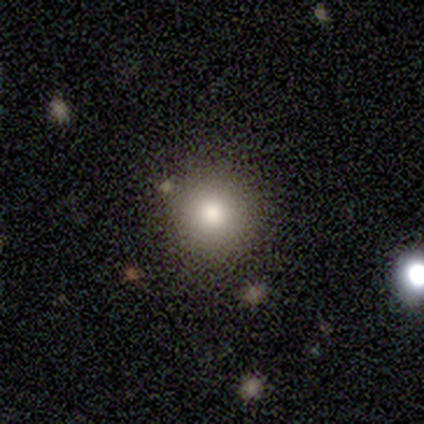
Smooth or featured? smooth (100%)
How rounded? round (100%)
Merging? none (75%)